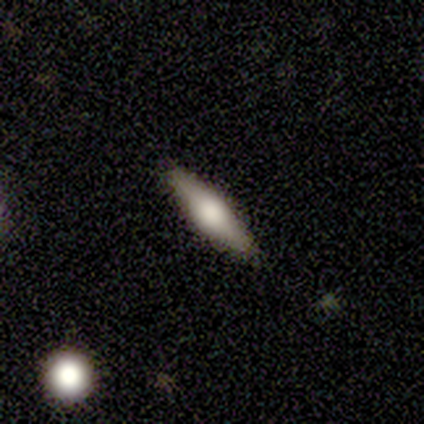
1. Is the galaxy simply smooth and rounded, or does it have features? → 60% featured or disk, 40% smooth, 0% star or artifact.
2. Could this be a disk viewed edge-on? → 67% yes, 33% no.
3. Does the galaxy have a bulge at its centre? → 100% rounded, 0% boxy, 0% none.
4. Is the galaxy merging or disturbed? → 100% none, 0% minor disturbance, 0% major disturbance, 0% merger.